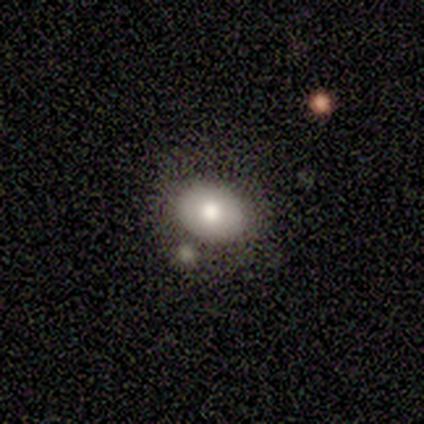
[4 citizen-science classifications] smooth-or-featured: smooth: 75% | featured or disk: 25% | star or artifact: 0%
  how-rounded: in between: 67% | round: 33% | cigar-shaped: 0%
  merging: none: 100% | minor disturbance: 0% | major disturbance: 0% | merger: 0%